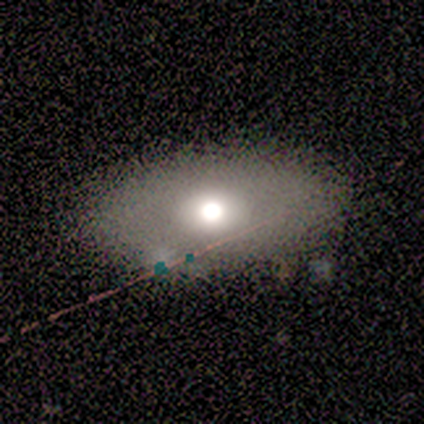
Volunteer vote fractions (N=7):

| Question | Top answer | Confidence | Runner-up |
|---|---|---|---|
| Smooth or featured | smooth | 57% | star or artifact (29%) |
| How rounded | in between | 75% | round (25%) |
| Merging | none | 60% | minor disturbance (20%) |